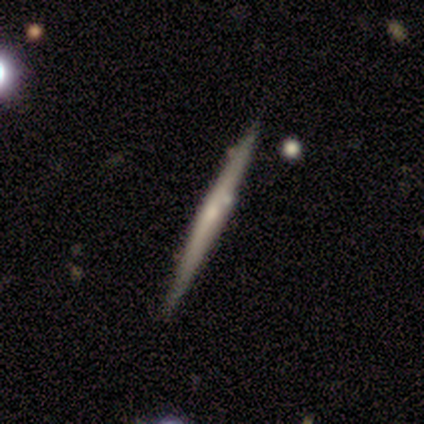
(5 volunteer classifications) Morphology: type=smooth (60%); roundness=cigar-shaped (100%); merging=none (80%).